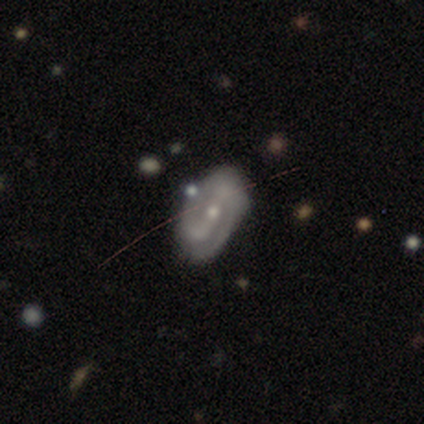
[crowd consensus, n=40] Q: Smooth or featured?
A: featured or disk (78%); runner-up: smooth (15%)
Q: Edge-on disk?
A: no (94%); runner-up: yes (6%)
Q: Bar?
A: strong (41%); runner-up: no (34%)
Q: Spiral arms?
A: yes (93%); runner-up: no (7%)
Q: Spiral winding?
A: tight (41%); runner-up: loose (33%)
Q: Spiral arm count?
A: 2 (81%); runner-up: can't tell (11%)
Q: Bulge size?
A: small (76%); runner-up: moderate (17%)
Q: Merging?
A: none (65%); runner-up: minor disturbance (30%)